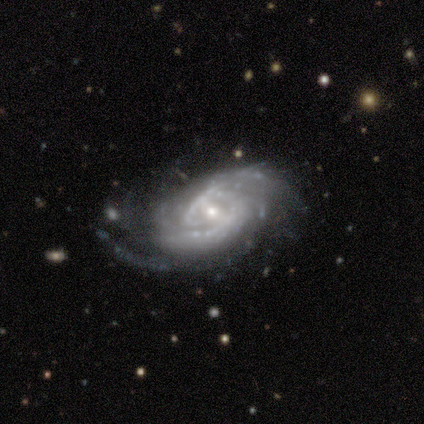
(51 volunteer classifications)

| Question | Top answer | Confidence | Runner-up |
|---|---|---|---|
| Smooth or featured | featured or disk | 98% | smooth (2%) |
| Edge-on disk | no | 98% | yes (2%) |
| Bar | weak | 53% | no (35%) |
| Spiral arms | yes | 98% | no (2%) |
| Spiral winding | tight | 54% | medium (40%) |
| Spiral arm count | can't tell | 33% | 2 (29%) |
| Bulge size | small | 55% | moderate (41%) |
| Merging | none | 61% | major disturbance (22%) |